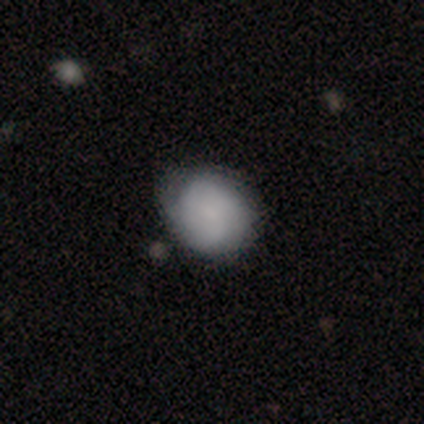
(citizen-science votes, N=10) This appears to be a smooth galaxy with no disk features (70%) that is round (71%). Merging: none (50%, tied with minor disturbance).